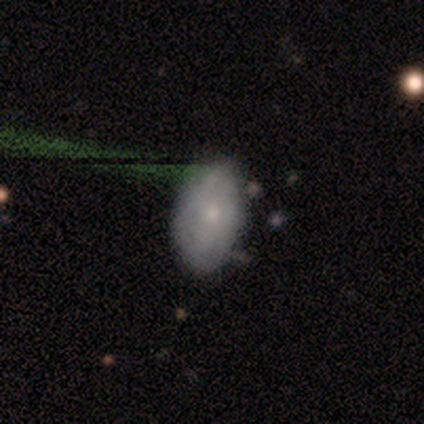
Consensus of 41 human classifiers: This appears to be a smooth galaxy with no disk features (46%) that is in between round and cigar-shaped (79%). Merging: none (57%).